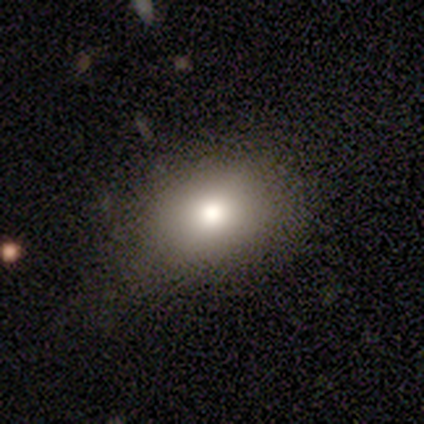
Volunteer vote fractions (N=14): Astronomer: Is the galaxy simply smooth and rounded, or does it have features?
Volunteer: smooth — 71%.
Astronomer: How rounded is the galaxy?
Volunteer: in between — 70%.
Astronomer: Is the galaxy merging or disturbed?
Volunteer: none — 85%.